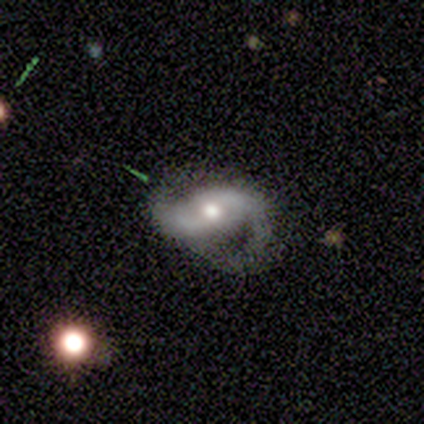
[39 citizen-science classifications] Smooth or featured? featured or disk (77%)
Edge-on disk? no (93%)
Bar? no (43%)
Spiral arms? yes (96%)
Spiral winding? medium (63%)
Spiral arm count? 2 (100%)
Bulge size? moderate (75%)
Merging? none (49%)